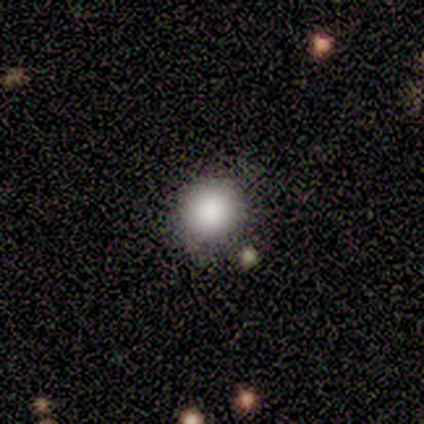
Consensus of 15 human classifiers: smooth 80%, featured or disk 20%, star or artifact 0%. Down the decision tree: how rounded — round (100%); merging — none (93%).